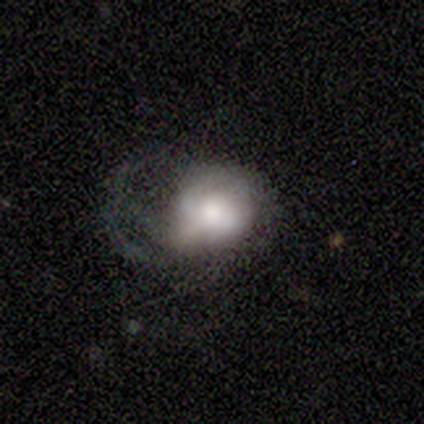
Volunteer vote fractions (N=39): A featured or disk galaxy (56%) with no bar (68%), 1 (33%, tied with can't tell) medium (42%) spiral arms (55%) and a moderate central bulge (41%).

Vote fractions:
- Smooth or featured? featured or disk: 56% / smooth: 44% / star or artifact: 0%
- Edge-on disk? no: 100% / yes: 0%
- Bar? no: 68% / weak: 27% / strong: 5%
- Spiral arms? yes: 55% / no: 45%
- Spiral winding? medium: 42% / tight: 33% / loose: 25%
- Spiral arm count? 1: 33% (tied) / can't tell: 33% (tied) / 2: 17% / 4: 8% / more than 4: 8% / 3: 0%
- Bulge size? moderate: 41% / large: 32% / dominant: 14% / small: 14% / none: 0%
- Merging? major disturbance: 51% / minor disturbance: 26% / none: 23% / merger: 0%